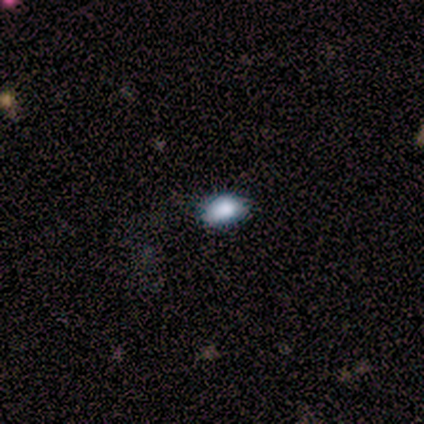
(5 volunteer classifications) Overall: smooth (100%). How rounded: in between (100%). Merging: none (80%).